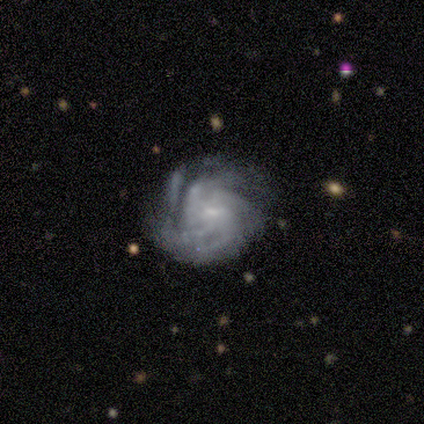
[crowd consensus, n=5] Smooth or featured? 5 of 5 (100%) said featured or disk. Edge-on disk? 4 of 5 (80%) said no. Bar? 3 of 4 (75%) said weak. Spiral arms? 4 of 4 (100%) said yes. Spiral winding? 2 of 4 (50%) said medium. Spiral arm count? 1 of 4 (25%, tied with 4, more than 4 and can't tell) said 3. Bulge size? 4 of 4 (100%) said small. Merging? 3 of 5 (60%) said none.